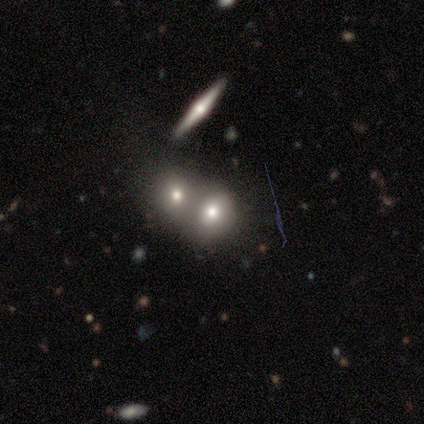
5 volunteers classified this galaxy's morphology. Smooth or featured? smooth (60%)
How rounded? round (67%)
Merging? merger (80%)